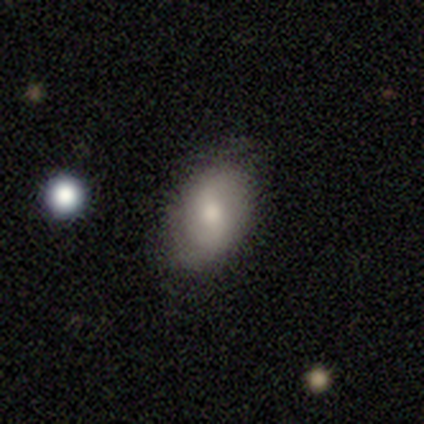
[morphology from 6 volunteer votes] This appears to be a smooth galaxy with no disk features (67%) that is in between round and cigar-shaped (100%). Merging: none (100%).